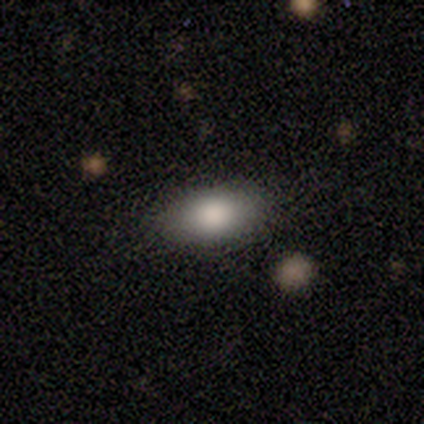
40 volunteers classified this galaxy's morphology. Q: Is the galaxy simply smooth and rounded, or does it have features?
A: smooth — 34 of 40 (85%).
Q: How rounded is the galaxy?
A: in between — 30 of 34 (88%).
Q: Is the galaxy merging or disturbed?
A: none — 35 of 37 (95%).